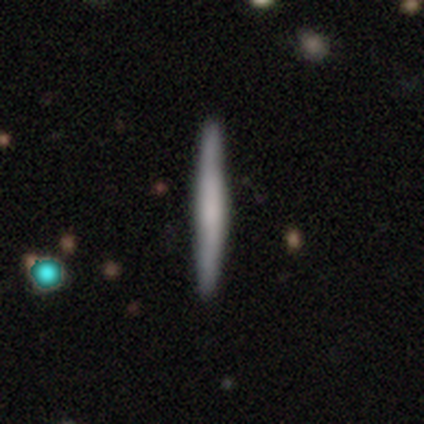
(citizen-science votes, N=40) Volunteers were most divided on "smooth or featured": smooth: 48%, featured or disk: 42%, star or artifact: 10%. More confident: how rounded — cigar-shaped (100%); merging — none (94%).